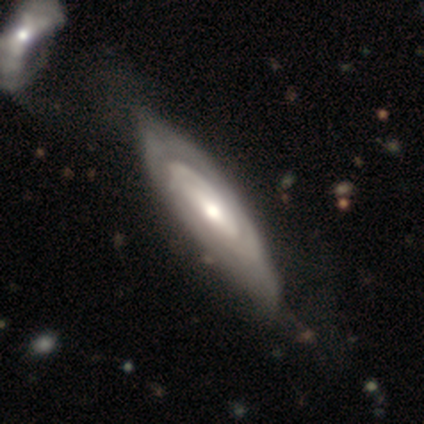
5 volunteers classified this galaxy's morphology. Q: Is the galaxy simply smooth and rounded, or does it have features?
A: featured or disk — 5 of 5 (100%).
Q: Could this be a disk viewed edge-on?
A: no — 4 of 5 (80%).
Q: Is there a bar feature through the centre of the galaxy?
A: strong — 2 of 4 (50%).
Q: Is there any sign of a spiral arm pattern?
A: yes — 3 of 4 (75%).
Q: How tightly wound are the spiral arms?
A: tight — 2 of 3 (67%).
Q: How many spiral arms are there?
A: can't tell — 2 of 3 (67%).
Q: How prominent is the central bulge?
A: moderate — 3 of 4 (75%).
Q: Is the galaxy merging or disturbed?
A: none — 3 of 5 (60%).